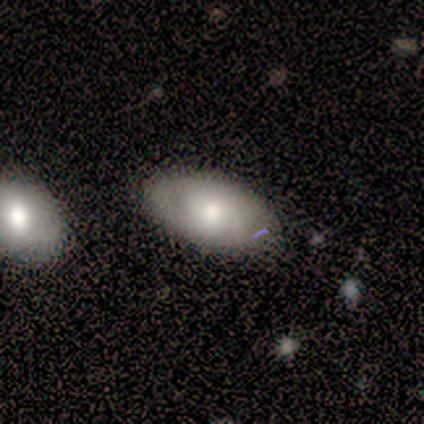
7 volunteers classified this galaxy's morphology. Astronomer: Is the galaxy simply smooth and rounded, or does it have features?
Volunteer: smooth — 57% (runner-up: featured or disk, 43%).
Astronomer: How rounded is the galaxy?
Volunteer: in between — 100%.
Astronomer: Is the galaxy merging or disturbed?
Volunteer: none — 71%.